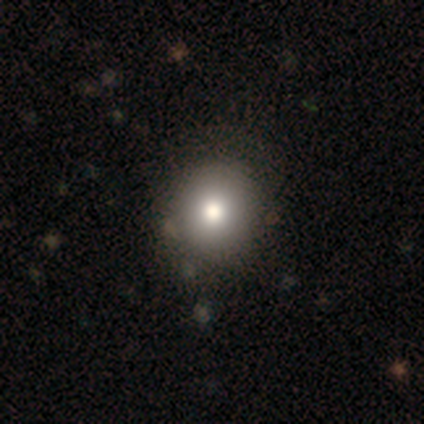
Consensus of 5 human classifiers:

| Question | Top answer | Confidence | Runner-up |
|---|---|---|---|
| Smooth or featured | smooth | 100% | — |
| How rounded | round | 80% | in between (20%) |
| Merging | none | 80% | minor disturbance (20%) |